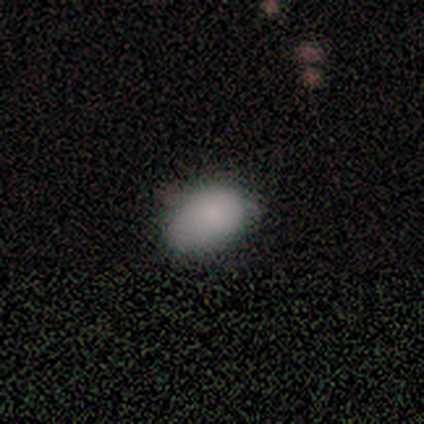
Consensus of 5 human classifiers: smooth 80%, star or artifact 20%, featured or disk 0%. Down the decision tree: how rounded — in between (75%); merging — minor disturbance (100%).